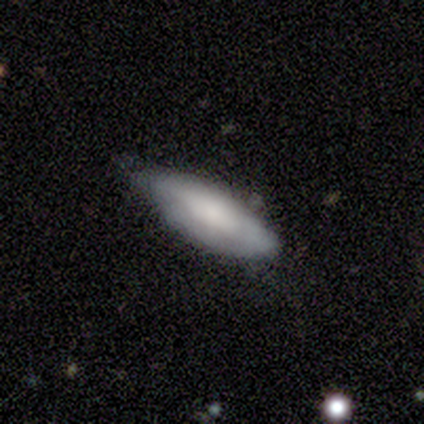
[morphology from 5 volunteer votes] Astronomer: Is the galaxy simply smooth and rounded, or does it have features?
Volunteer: smooth — 80%.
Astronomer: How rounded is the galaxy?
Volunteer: in between — 100%.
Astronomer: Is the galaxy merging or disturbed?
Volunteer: none — 60% (runner-up: major disturbance, 40%).